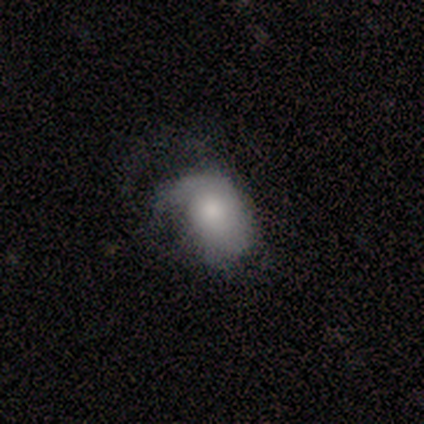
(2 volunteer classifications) A featured or disk galaxy (100%) with no bar (100%), no spiral arms (100%) and a moderate central bulge (100%). Merging: none (50%, tied with major disturbance).